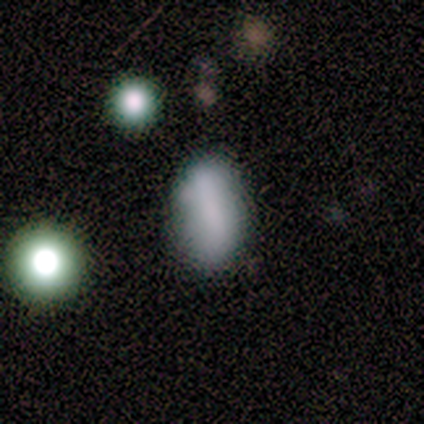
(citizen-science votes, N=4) Volunteers were most divided on "merging": none: 75%, minor disturbance: 25%, major disturbance: 0%, merger: 0%. More confident: smooth or featured — smooth (100%); how rounded — in between (100%).